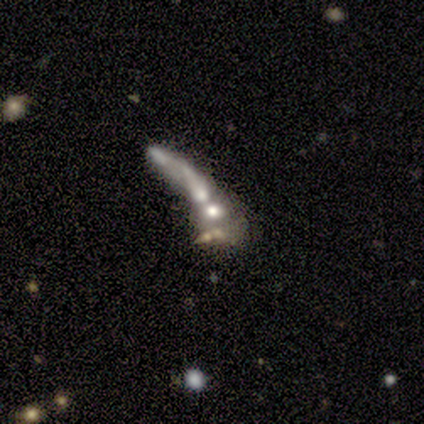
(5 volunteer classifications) Morphology: type=smooth (60%); roundness=round (33%, tied with in between and cigar-shaped); merging=merger (60%).